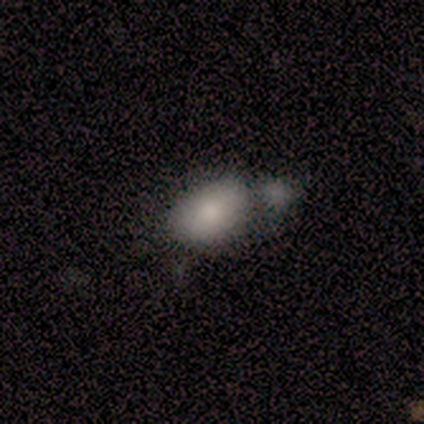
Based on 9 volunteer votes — This appears to be a smooth galaxy with no disk features (89%) that is in between round and cigar-shaped (100%). Merging: merger (44%).